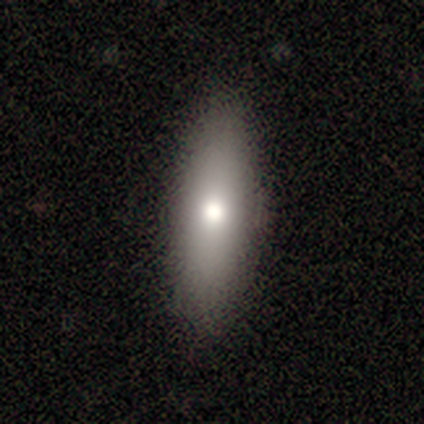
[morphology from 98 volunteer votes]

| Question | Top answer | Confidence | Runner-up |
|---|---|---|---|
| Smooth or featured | smooth | 76% | featured or disk (19%) |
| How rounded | in between | 53% | cigar-shaped (46%) |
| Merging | none | 85% | minor disturbance (11%) |